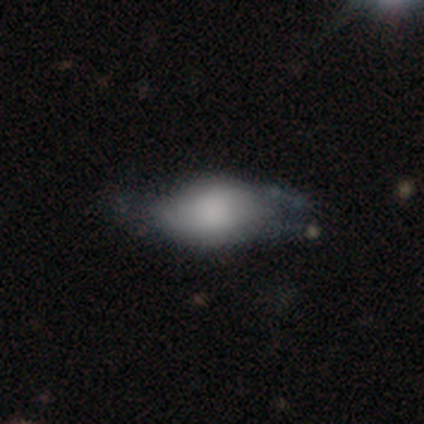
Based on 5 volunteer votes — featured or disk 60%, smooth 20%, star or artifact 20%. Down the decision tree: edge-on disk — no (100%); bar — no (100%); spiral arms — no (100%); bulge size — dominant (33%, tied with large and none); merging — none (50%).